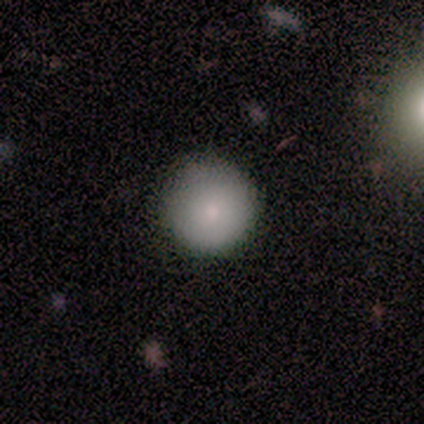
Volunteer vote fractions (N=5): Morphology: type=smooth (60%); roundness=round (100%); merging=none (80%).